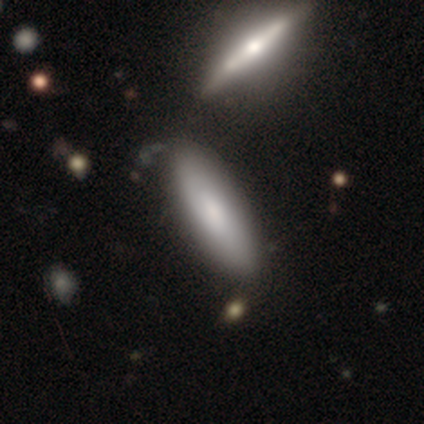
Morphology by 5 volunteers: Volunteers were most divided on "how rounded": cigar-shaped: 75%, in between: 25%, round: 0%. More confident: smooth or featured — smooth (80%); merging — none (80%).